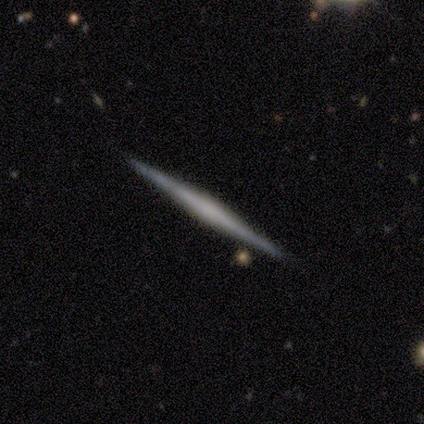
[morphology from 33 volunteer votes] Q: Smooth or featured?
A: featured or disk (79%); runner-up: star or artifact (12%)
Q: Edge-on disk?
A: yes (100%)
Q: Edge-on bulge?
A: none (38%); runner-up: rounded (35%)
Q: Merging?
A: none (83%); runner-up: minor disturbance (10%)